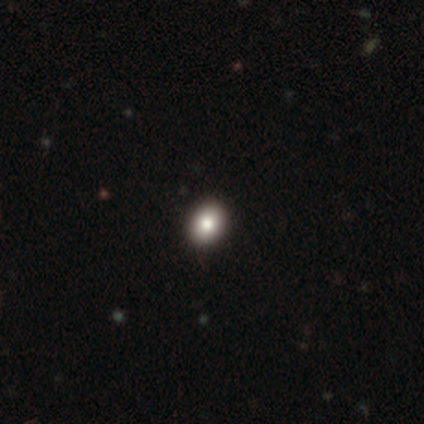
A smooth galaxy with no disk features (100%) that is in between round and cigar-shaped (60%).

Vote fractions:
- Smooth or featured? smooth: 100% / featured or disk: 0% / star or artifact: 0%
- How rounded? in between: 60% / round: 40% / cigar-shaped: 0%
- Merging? none: 100% / minor disturbance: 0% / major disturbance: 0% / merger: 0%